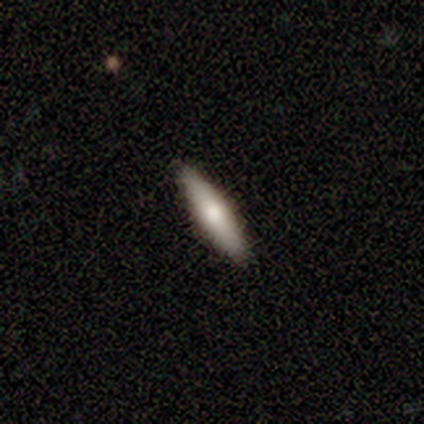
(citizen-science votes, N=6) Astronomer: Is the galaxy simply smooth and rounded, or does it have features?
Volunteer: featured or disk — 67%.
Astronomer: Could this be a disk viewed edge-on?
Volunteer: yes — 75%.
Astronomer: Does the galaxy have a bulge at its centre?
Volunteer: rounded — 67%.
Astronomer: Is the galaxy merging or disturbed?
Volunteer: none — 100%.